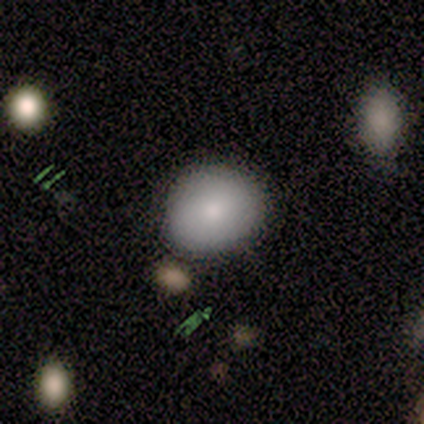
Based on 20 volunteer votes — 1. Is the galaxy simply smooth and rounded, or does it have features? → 95% smooth, 5% star or artifact, 0% featured or disk.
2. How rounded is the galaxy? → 63% round, 37% in between, 0% cigar-shaped.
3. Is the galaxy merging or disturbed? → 79% none, 11% minor disturbance, 11% major disturbance, 0% merger.